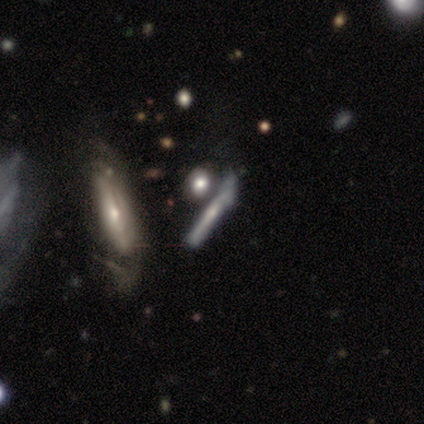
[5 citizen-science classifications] Overall: smooth (40%, tied with featured or disk). How rounded: in between (50%, tied with cigar-shaped). Merging: none (50%; minor disturbance 25%).